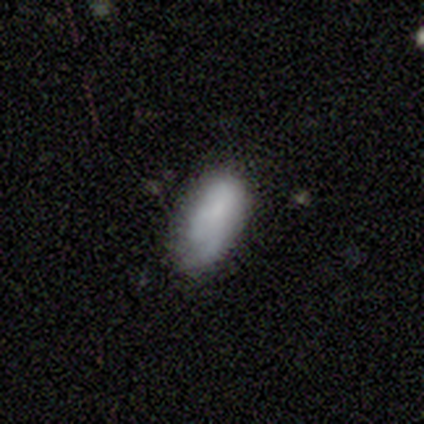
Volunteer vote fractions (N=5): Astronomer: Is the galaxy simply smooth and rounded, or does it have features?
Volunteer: smooth — 60% (runner-up: featured or disk, 40%).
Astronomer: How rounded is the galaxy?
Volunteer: in between — 67%.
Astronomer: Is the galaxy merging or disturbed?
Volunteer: none — 100%.